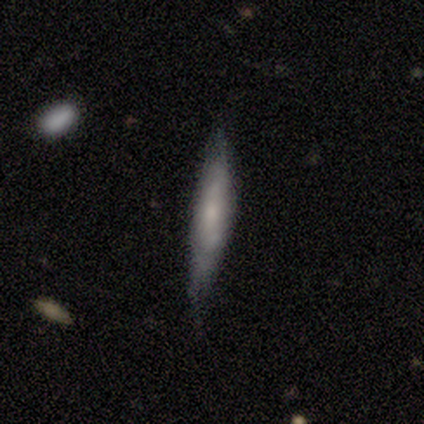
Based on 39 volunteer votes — This appears to be a featured or disk galaxy (62%) viewed edge-on (71%) with a rounded central bulge (65%). Merging: none (54%).